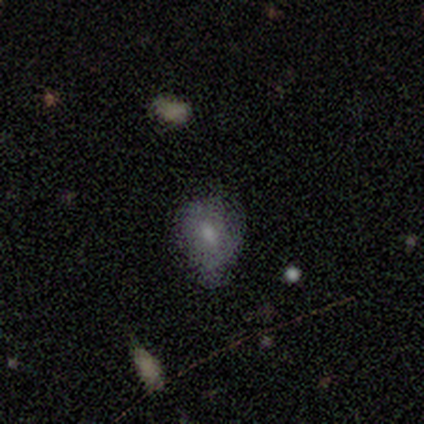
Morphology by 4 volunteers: Smooth or featured: featured or disk — 75% (smooth — 25%)
Edge-on disk: no — 100%
Bar: no — 100%
Spiral arms: no — 100%
Bulge size: small — 100%
Merging: none — 75% (minor disturbance — 25%)